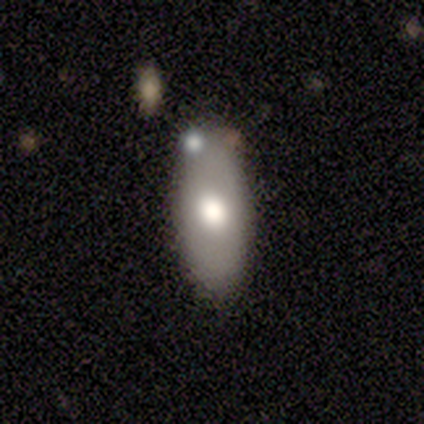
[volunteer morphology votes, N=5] smooth 60%, featured or disk 40%, star or artifact 0%. Down the decision tree: how rounded — in between (100%); merging — none (100%).